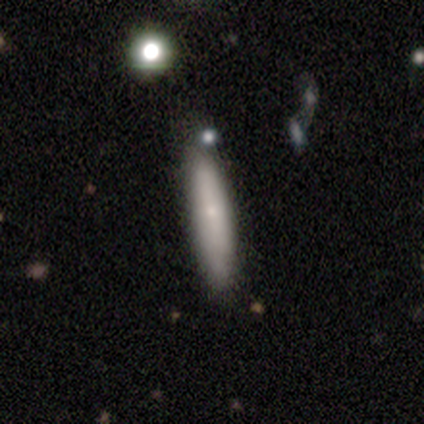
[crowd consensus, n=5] Morphology: type=smooth (80%); roundness=cigar-shaped (100%); merging=none (100%).